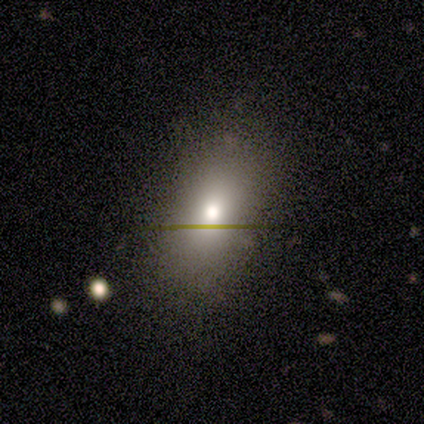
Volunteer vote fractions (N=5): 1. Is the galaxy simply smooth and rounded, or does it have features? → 100% smooth, 0% featured or disk, 0% star or artifact.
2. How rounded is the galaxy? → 100% in between, 0% round, 0% cigar-shaped.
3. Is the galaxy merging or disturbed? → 80% none, 20% major disturbance, 0% minor disturbance, 0% merger.